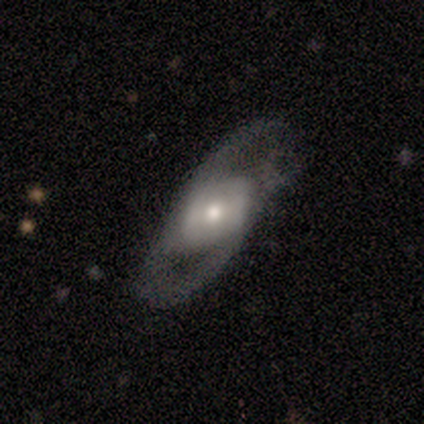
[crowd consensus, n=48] Volunteers were most divided on "bar": weak: 51%, no: 38%, strong: 11%. More confident: edge-on disk — no (92%); spiral arm count — 2 (89%); smooth or featured — featured or disk (83%); spiral arms — yes (73%); merging — none (60%); bulge size — moderate (54%); spiral winding — medium (52%).